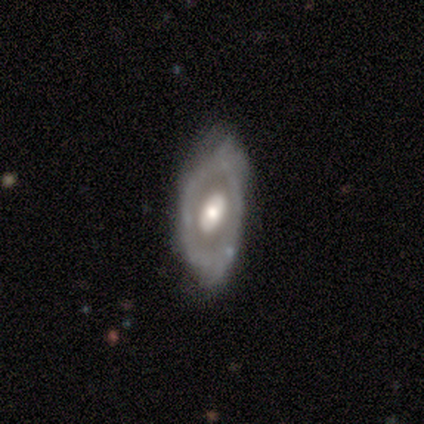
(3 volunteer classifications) smooth_or_featured: featured or disk (p=0.67) [alt: smooth p=0.33]
disk_edge_on: yes (p=0.50) [tied with: no p=0.50]
edge_on_bulge: rounded (p=1.00)
merging: none (p=0.67) [alt: major disturbance p=0.33]